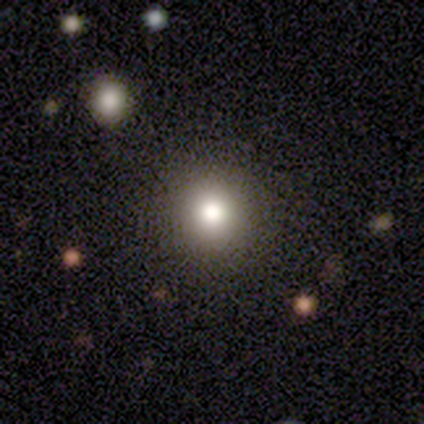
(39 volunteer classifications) This is likely a smooth galaxy (79%). How rounded: clearly round (90%). Merging: clearly none (91%).